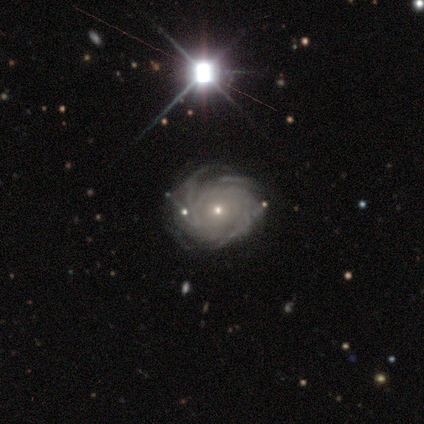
A featured or disk galaxy (86%) with no bar (90%), tight (78%) spiral arms (95%) and a small central bulge (67%).

Vote fractions:
- Smooth or featured? featured or disk: 86% / smooth: 7% / star or artifact: 7%
- Edge-on disk? no: 100% / yes: 0%
- Bar? no: 90% / strong: 6% / weak: 3%
- Spiral arms? yes: 95% / no: 5%
- Spiral winding? tight: 78% / medium: 18% / loose: 3%
- Spiral arm count? can't tell: 37% / more than 4: 33% / 4: 17% / 3: 12% / 1: 2% / 2: 0%
- Bulge size? small: 67% / moderate: 27% / large: 3% / dominant: 2% / none: 2%
- Merging? none: 71% / minor disturbance: 21% / major disturbance: 6% / merger: 3%